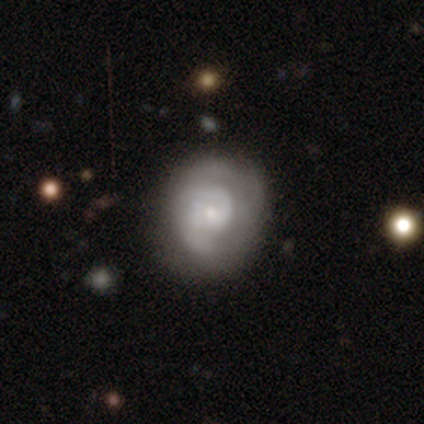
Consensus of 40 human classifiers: Overall: featured or disk (78%). Edge-on disk: no (97%). Bar: no (60%; weak 37%). Spiral arms: yes (90%). Spiral arm count: 2 (56%; can't tell 30%). Spiral winding: tight (48%; medium 37%). Bulge size: small (70%). Merging: none (70%).